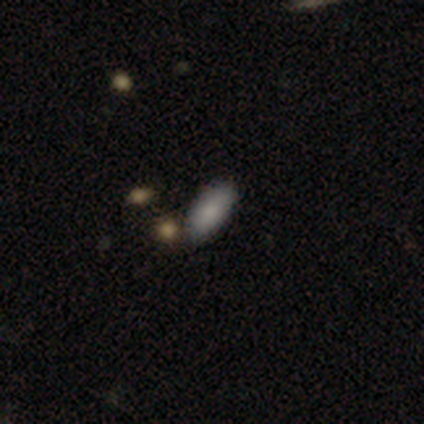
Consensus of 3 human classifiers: smooth-or-featured: smooth: 100% | featured or disk: 0% | star or artifact: 0%
  how-rounded: in between: 100% | round: 0% | cigar-shaped: 0%
  merging: none: 100% | minor disturbance: 0% | major disturbance: 0% | merger: 0%